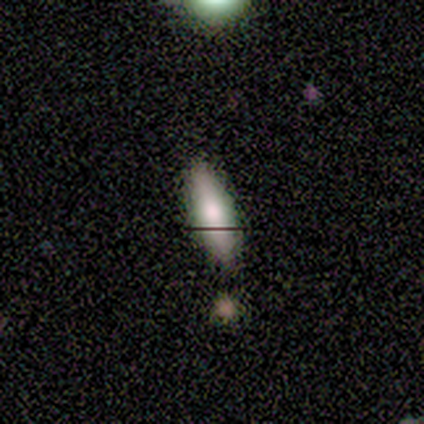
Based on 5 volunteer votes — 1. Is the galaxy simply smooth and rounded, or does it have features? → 100% smooth, 0% featured or disk, 0% star or artifact.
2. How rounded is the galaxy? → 80% cigar-shaped, 20% in between, 0% round.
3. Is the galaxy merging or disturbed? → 80% none, 20% major disturbance, 0% minor disturbance, 0% merger.